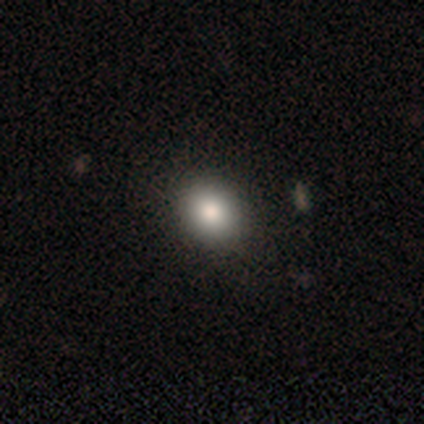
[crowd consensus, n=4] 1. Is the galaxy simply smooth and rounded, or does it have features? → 75% smooth, 25% star or artifact, 0% featured or disk.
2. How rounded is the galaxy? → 67% round, 33% in between, 0% cigar-shaped.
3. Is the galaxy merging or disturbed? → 100% none, 0% minor disturbance, 0% major disturbance, 0% merger.